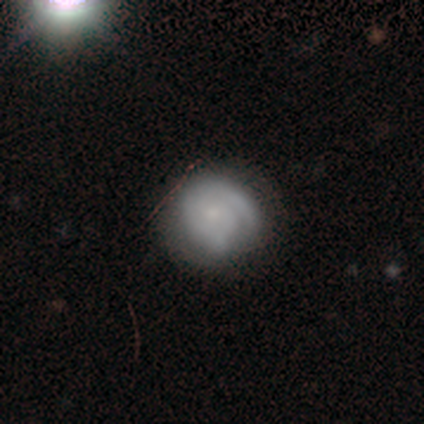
featured or disk 61%, smooth 31%, star or artifact 8%. Down the decision tree: edge-on disk — no (100%); bar — no (87%); spiral arms — yes (87%); spiral arm count — 1 (35%, tied with can't tell); spiral winding — tight (62%); bulge size — small (61%); merging — none (33%).